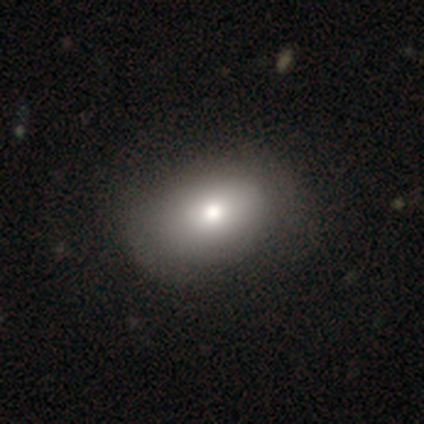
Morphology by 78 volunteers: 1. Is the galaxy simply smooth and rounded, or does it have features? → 76% smooth, 15% featured or disk, 9% star or artifact.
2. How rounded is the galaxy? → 83% in between, 17% round, 0% cigar-shaped.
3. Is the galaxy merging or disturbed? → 31% none, 15% minor disturbance, 6% major disturbance, 0% merger.